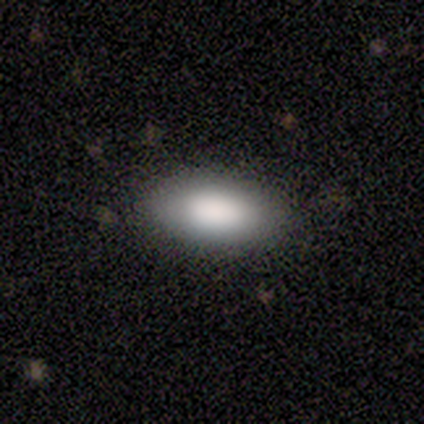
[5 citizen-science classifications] Smooth or featured: smooth — 100%
How rounded: in between — 100%
Merging: none — 80% (merger — 20%)